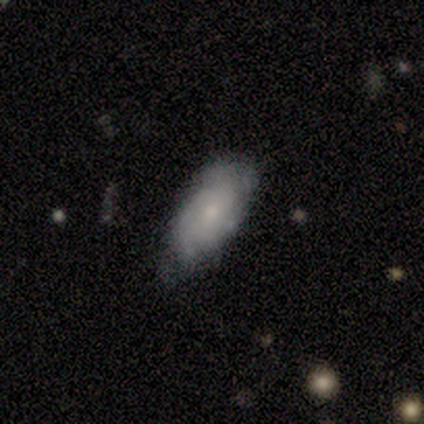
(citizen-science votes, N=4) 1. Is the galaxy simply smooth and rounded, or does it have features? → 50% smooth (tied), 50% featured or disk (tied), 0% star or artifact.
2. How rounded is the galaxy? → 100% in between, 0% round, 0% cigar-shaped.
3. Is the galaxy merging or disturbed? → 75% none, 25% minor disturbance, 0% major disturbance, 0% merger.